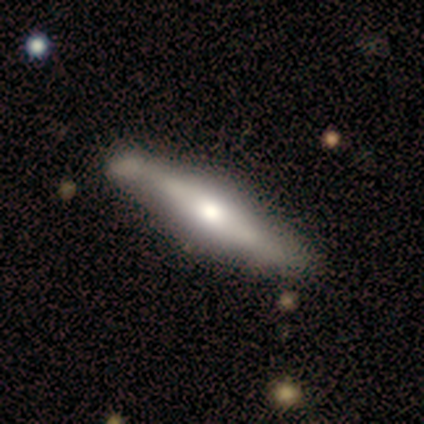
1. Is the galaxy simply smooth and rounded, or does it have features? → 63% featured or disk, 34% smooth, 3% star or artifact.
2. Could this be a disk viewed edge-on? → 92% yes, 8% no.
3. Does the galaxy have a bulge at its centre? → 82% rounded, 9% boxy, 9% none.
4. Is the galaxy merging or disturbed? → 41% none, 14% minor disturbance, 8% merger, 0% major disturbance.